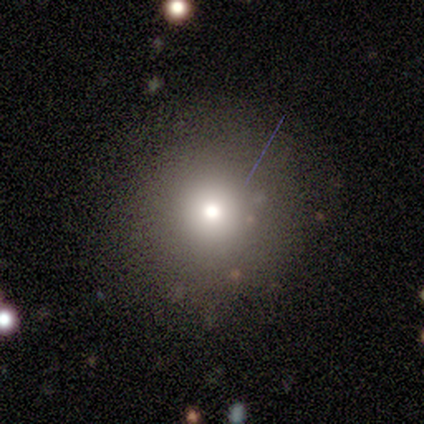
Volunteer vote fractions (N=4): Q: Smooth or featured?
A: smooth (100%)
Q: How rounded?
A: round (100%)
Q: Merging?
A: none (100%)